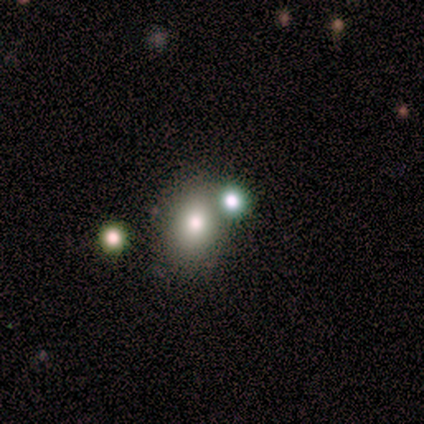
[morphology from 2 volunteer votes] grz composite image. It shows a smooth galaxy with no disk features (100%) that is round (100%). Merging: none (100%).